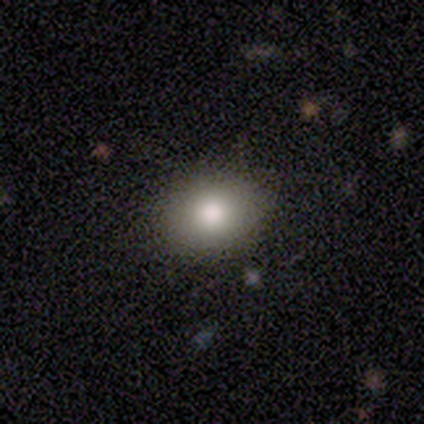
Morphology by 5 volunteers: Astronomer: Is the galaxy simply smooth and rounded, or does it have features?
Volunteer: star or artifact — 60% (runner-up: featured or disk, 40%).